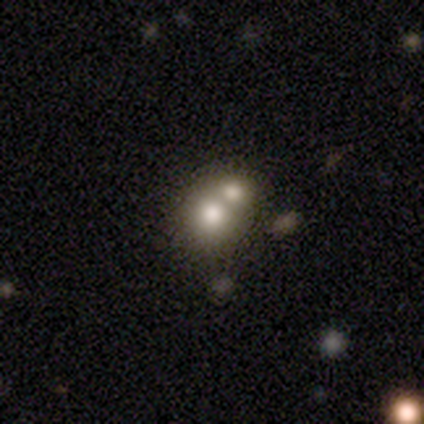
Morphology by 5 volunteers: This appears to be a smooth galaxy with no disk features (80%) that is round (100%). Merging: merger (60%).